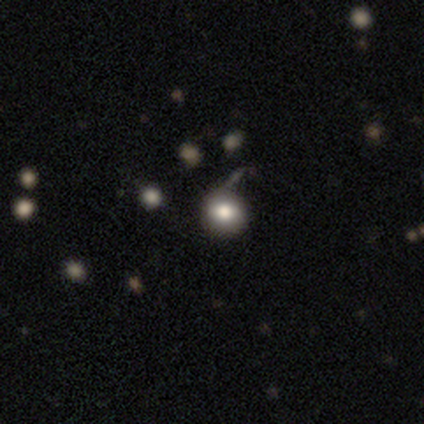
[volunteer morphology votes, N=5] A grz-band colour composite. It shows a smooth galaxy with no disk features (100%) that is round (80%). Merging: none (60%).